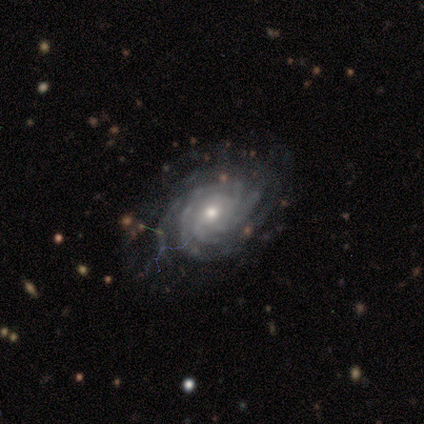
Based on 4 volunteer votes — Smooth or featured? featured or disk (75%)
Edge-on disk? no (100%)
Bar? no (100%)
Spiral arms? yes (100%)
Spiral winding? tight (67%)
Spiral arm count? can't tell (67%)
Bulge size? small (100%)
Merging? none (50%, tied with minor disturbance)